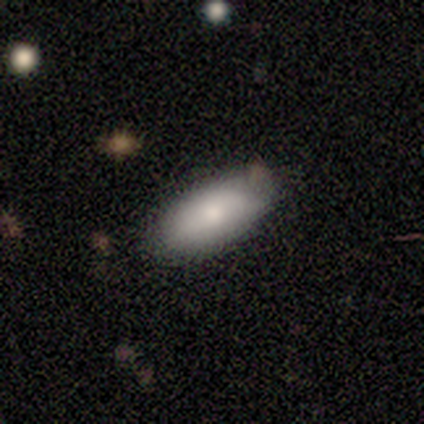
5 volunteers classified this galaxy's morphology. Q: Smooth or featured?
A: smooth (80%); runner-up: featured or disk (20%)
Q: How rounded?
A: in between (75%); runner-up: cigar-shaped (25%)
Q: Merging?
A: none (80%); runner-up: minor disturbance (20%)